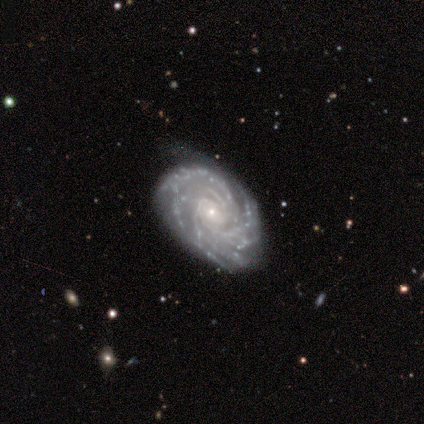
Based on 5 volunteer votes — Morphology: type=featured or disk (80%); edge-on=no (100%); bar=weak (50%); spiral arms=yes (100%); winding=tight (100%); arm count=4 (50%); bulge=small (75%); merging=minor disturbance (60%).